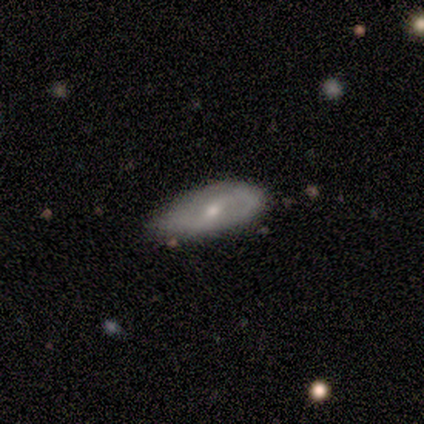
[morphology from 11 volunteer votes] Smooth or featured? 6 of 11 (55%) said featured or disk. Edge-on disk? 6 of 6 (100%) said no. Bar? 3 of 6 (50%, tied with no) said weak. Spiral arms? 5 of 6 (83%) said yes. Spiral winding? 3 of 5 (60%) said loose. Spiral arm count? 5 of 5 (100%) said 2. Bulge size? 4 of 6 (67%) said small. Merging? 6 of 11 (55%) said none.